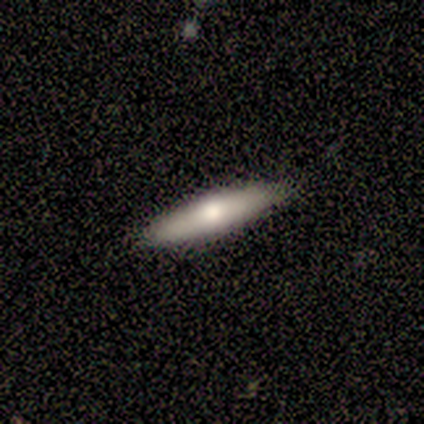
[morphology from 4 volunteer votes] Smooth or featured: smooth — 75% (featured or disk — 25%)
How rounded: cigar-shaped — 67% (in between — 33%)
Merging: none — 100%